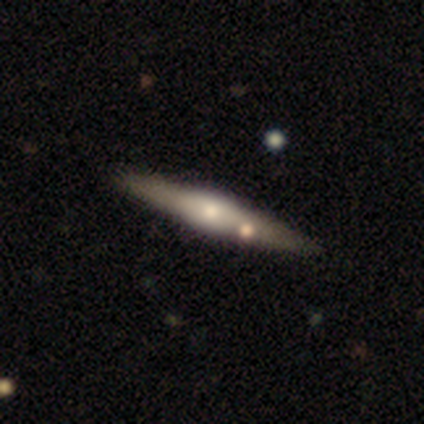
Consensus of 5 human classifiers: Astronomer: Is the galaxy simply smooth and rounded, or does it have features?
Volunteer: featured or disk — 100%.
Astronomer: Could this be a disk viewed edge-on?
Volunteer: yes — 100%.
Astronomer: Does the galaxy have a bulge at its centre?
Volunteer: rounded — 60% (runner-up: boxy, 40%).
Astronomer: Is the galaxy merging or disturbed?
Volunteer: none — 100%.